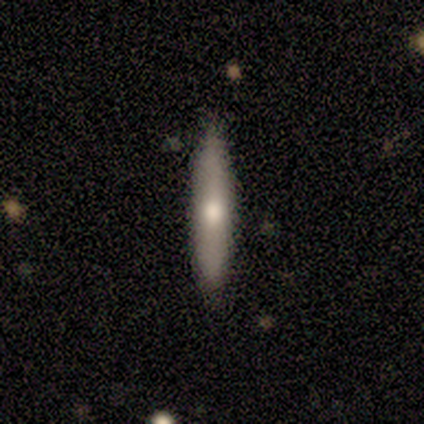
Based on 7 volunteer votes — Morphology: type=smooth (71%); roundness=cigar-shaped (100%); merging=none (100%).